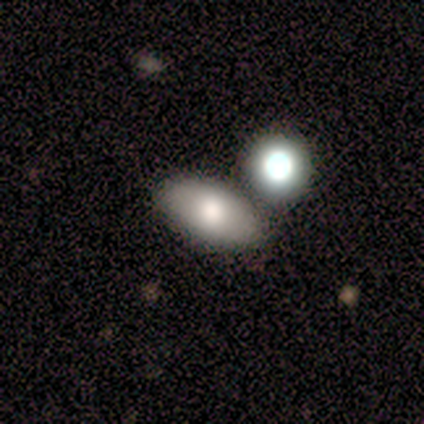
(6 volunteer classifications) Smooth or featured?
  - smooth: 67% *
  - featured or disk: 33%
  - star or artifact: 0%
How rounded?
  - in between: 100% *
  - round: 0%
  - cigar-shaped: 0%
Merging?
  - none: 67% *
  - merger: 33%
  - minor disturbance: 0%
  - major disturbance: 0%